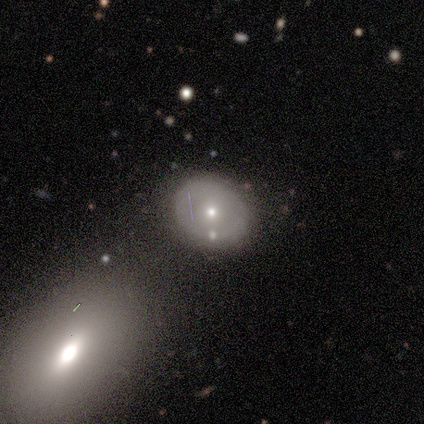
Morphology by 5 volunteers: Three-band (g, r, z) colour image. It shows a smooth galaxy with no disk features (60%) that is round (67%). Merging: none (80%).